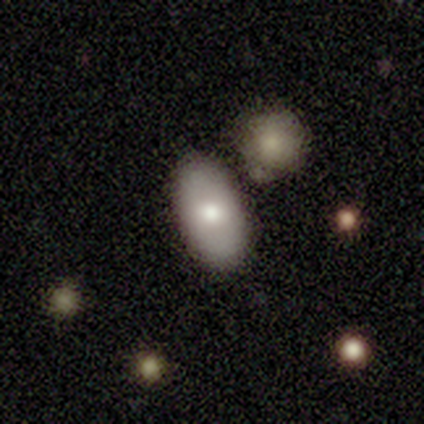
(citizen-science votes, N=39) smooth-or-featured: smooth: 79% | featured or disk: 10% | star or artifact: 10%
  how-rounded: in between: 97% | round: 3% | cigar-shaped: 0%
  merging: none: 77% | minor disturbance: 11% | merger: 9% | major disturbance: 3%